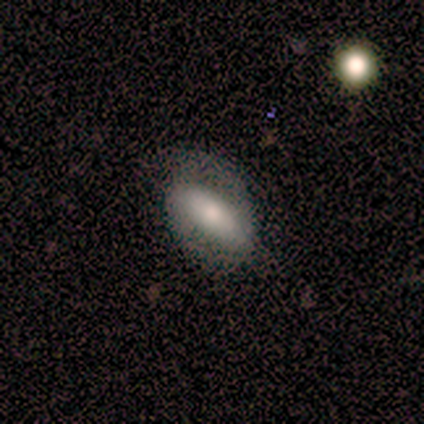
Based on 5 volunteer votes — Smooth or featured: smooth — 40% (tied with featured or disk — 40%)
How rounded: in between — 100%
Merging: none — 75% (minor disturbance — 25%)